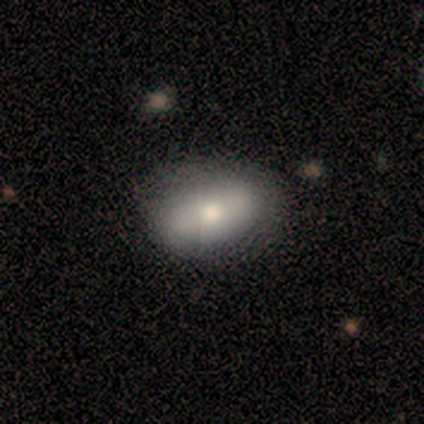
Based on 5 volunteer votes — This is clearly a smooth galaxy (80%). How rounded: clearly in between (100%). Merging: likely none (75%).